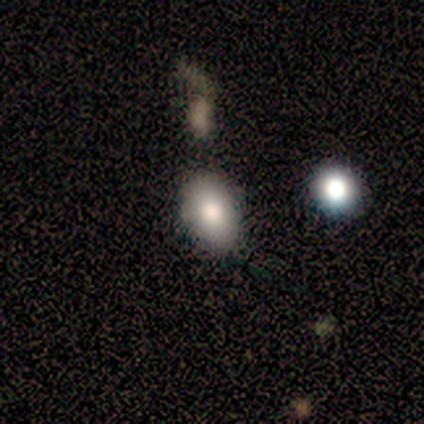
Smooth or featured?
  - smooth: 100% *
  - featured or disk: 0%
  - star or artifact: 0%
How rounded?
  - in between: 100% *
  - round: 0%
  - cigar-shaped: 0%
Merging?
  - none: 80% *
  - minor disturbance: 20%
  - major disturbance: 0%
  - merger: 0%